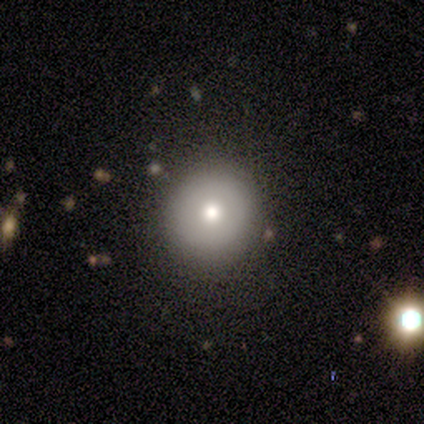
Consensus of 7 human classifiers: This is clearly a smooth galaxy (100%). How rounded: clearly round (100%). Merging: clearly none (100%).